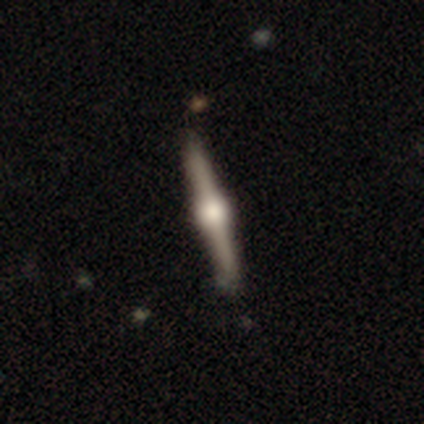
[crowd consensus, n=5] This appears to be a featured or disk galaxy (100%) viewed edge-on (100%) with a rounded central bulge (100%). Merging: none (100%).